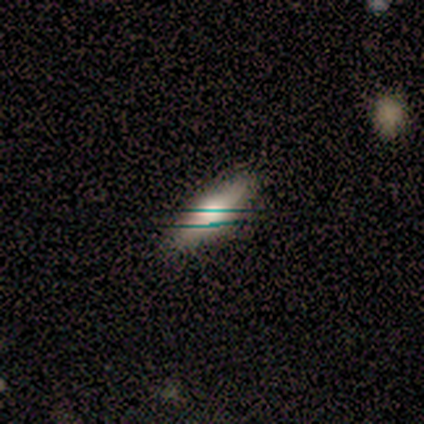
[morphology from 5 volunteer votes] This is clearly a smooth galaxy (80%). How rounded: possibly in between (50%, tied with cigar-shaped). Merging: likely none (75%).